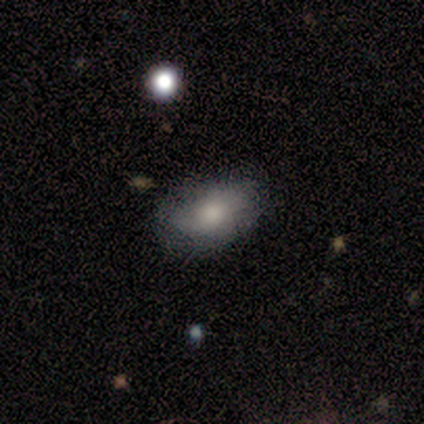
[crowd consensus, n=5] A smooth galaxy with no disk features (80%) that is in between round and cigar-shaped (100%). Merging: none (100%).